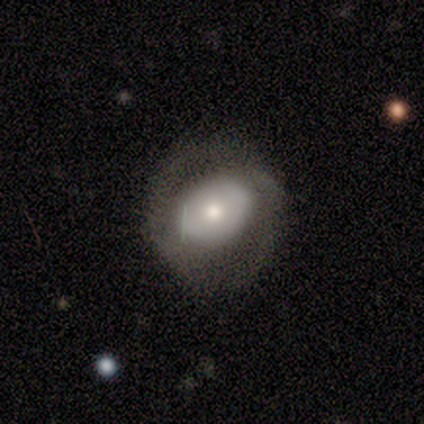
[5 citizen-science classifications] smooth-or-featured: smooth: 100% | featured or disk: 0% | star or artifact: 0%
  how-rounded: in between: 60% | round: 40% | cigar-shaped: 0%
  merging: minor disturbance: 60% | none: 20% | major disturbance: 20% | merger: 0%